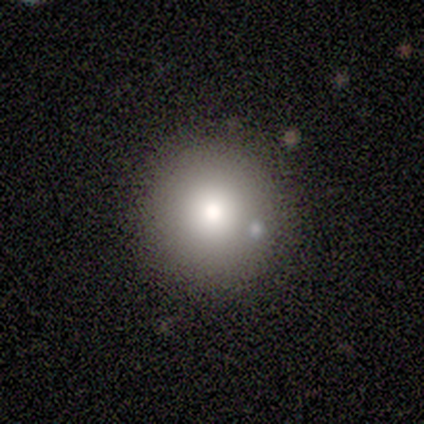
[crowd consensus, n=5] Morphology: type=smooth (80%); roundness=round (100%); merging=none (100%).